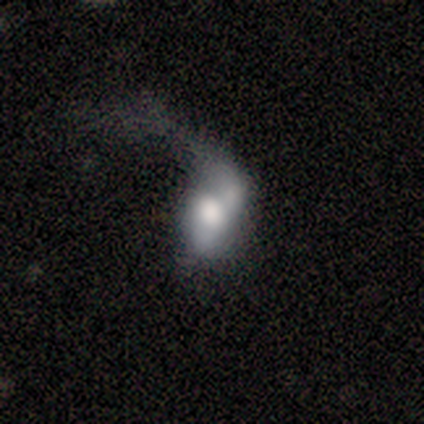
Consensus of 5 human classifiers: smooth-or-featured: featured or disk: 60% | smooth: 40% | star or artifact: 0%
  disk-edge-on: no: 67% | yes: 33%
    bar: weak: 50% (tied) | no: 50% (tied) | strong: 0%
    has-spiral-arms: no: 100% | yes: 0%
    bulge-size: large: 50% (tied) | moderate: 50% (tied) | dominant: 0% | small: 0% | none: 0%
  merging: major disturbance: 60% | minor disturbance: 20% | merger: 20% | none: 0%